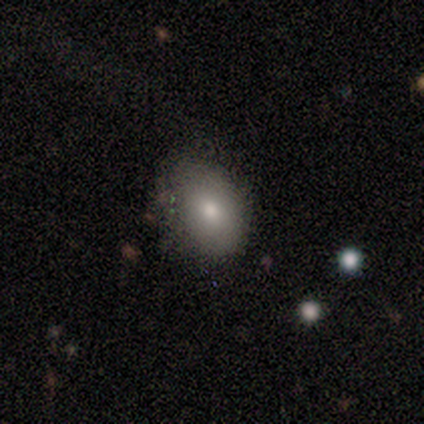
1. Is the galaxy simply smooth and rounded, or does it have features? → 80% smooth, 20% star or artifact, 0% featured or disk.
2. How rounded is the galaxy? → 50% round (tied), 50% in between (tied), 0% cigar-shaped.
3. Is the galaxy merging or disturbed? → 50% none (tied), 50% minor disturbance (tied), 0% major disturbance, 0% merger.